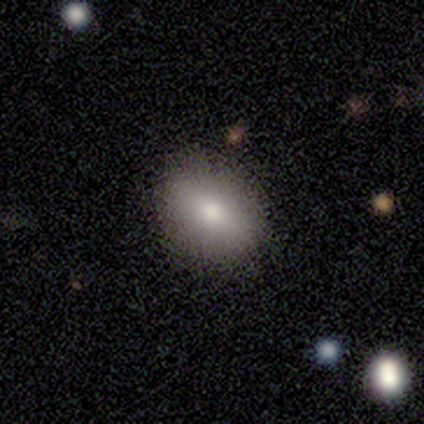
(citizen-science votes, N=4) Smooth or featured? 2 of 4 (50%, tied with star or artifact) said smooth. How rounded? 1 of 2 (50%, tied with in between) said round. Merging? 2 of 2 (100%) said none.